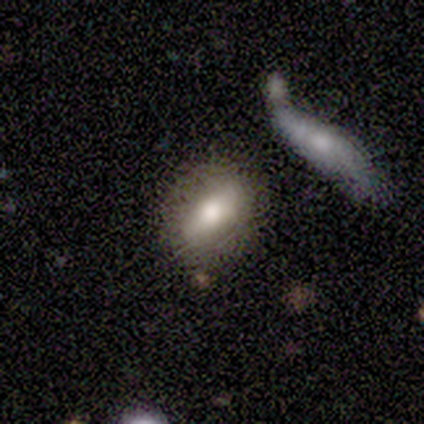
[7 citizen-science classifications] Volunteers were most divided on "bar" (2-way tie): strong: 40%, no: 40%, weak: 20%. More confident: edge-on disk — no (100%); smooth or featured — featured or disk (71%); merging — none (71%); spiral arms — no (60%); bulge size — moderate (60%).